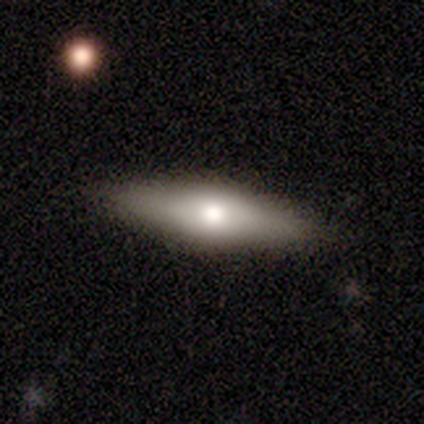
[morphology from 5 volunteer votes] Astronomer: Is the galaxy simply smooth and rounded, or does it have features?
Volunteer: smooth — 40%, tied with featured or disk at 40%.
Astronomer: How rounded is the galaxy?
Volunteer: in between — 50%, tied with cigar-shaped at 50%.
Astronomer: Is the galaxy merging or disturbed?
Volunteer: none — 100%.